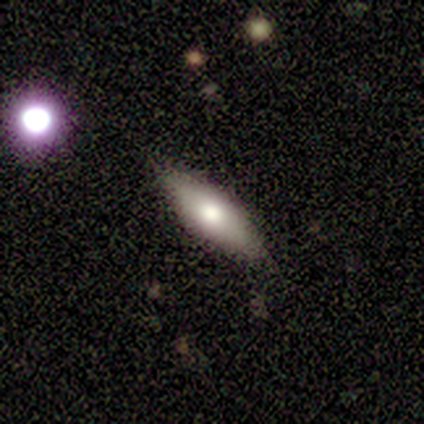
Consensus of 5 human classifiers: Smooth or featured: smooth — 100%
How rounded: in between — 60% (cigar-shaped — 40%)
Merging: none — 100%